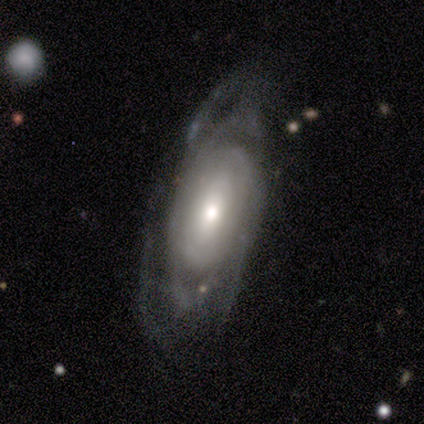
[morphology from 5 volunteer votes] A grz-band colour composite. It shows a featured or disk galaxy (60%) with no bar (67%), no spiral arms (67%) and a moderate central bulge (100%). Merging: major disturbance (60%).